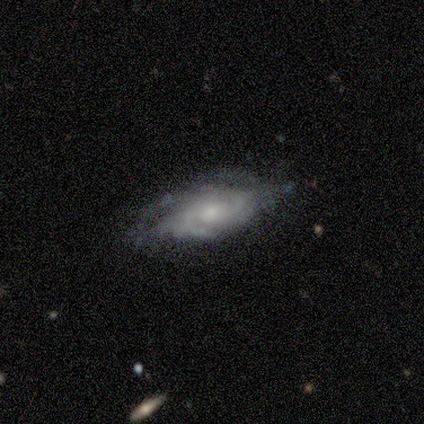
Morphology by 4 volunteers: smooth_or_featured: featured or disk (p=0.75) [alt: smooth p=0.25]
disk_edge_on: no (p=1.00)
bar: no (p=0.67) [alt: weak p=0.33]
has_spiral_arms: yes (p=1.00)
spiral_winding: tight (p=0.67) [alt: medium p=0.33]
spiral_arm_count: 2 (p=0.33) [tied with: 3 p=0.33, more than 4 p=0.33]
bulge_size: moderate (p=0.67) [alt: small p=0.33]
merging: minor disturbance (p=0.75) [alt: none p=0.25]